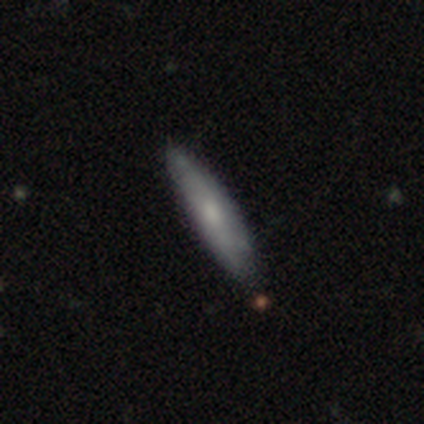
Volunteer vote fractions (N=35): Volunteers were most divided on "smooth or featured": featured or disk: 49%, smooth: 46%, star or artifact: 6%. More confident: edge-on disk — yes (82%); edge-on bulge — rounded (79%); merging — none (76%).